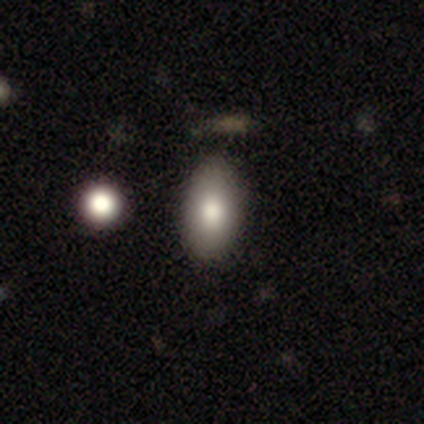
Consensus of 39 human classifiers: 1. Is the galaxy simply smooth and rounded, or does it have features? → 87% smooth, 10% featured or disk, 3% star or artifact.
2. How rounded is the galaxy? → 88% in between, 6% round, 6% cigar-shaped.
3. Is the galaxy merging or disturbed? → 74% none, 18% minor disturbance, 5% merger, 3% major disturbance.